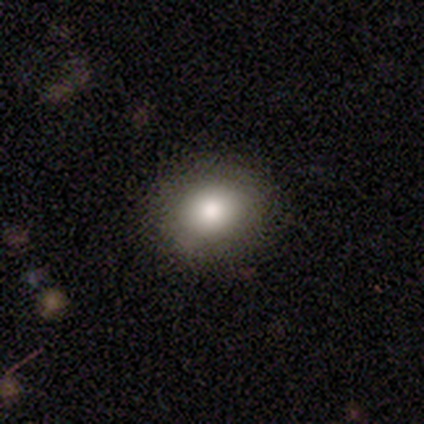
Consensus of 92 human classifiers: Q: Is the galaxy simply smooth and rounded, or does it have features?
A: smooth — 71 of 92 (77%).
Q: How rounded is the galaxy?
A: round — 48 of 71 (68%).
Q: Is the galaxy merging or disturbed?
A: none — 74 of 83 (89%).